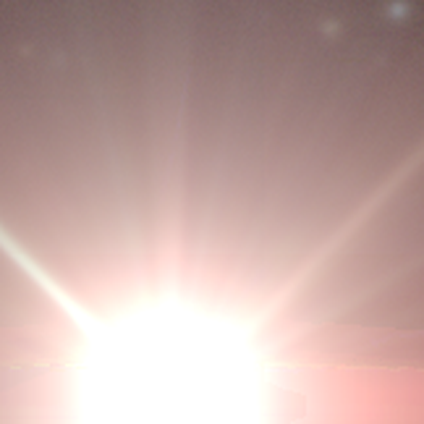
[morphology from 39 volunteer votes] A star or artifact, not a galaxy (100%).